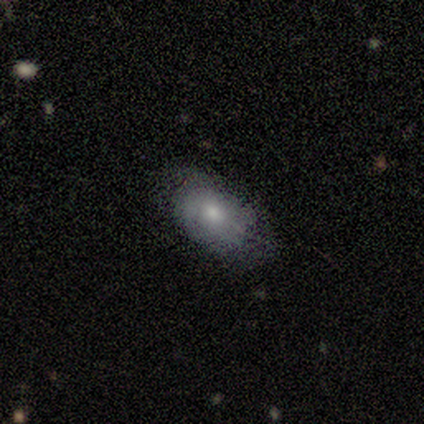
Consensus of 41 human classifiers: smooth_or_featured: smooth (p=0.59) [alt: featured or disk p=0.34]
how_rounded: in between (p=0.92) [alt: round p=0.04]
merging: none (p=0.63) [alt: minor disturbance p=0.26]